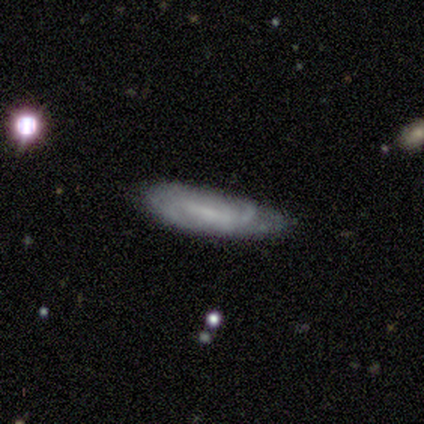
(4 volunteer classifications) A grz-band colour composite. It shows a featured or disk galaxy (75%) viewed edge-on (67%) with no central bulge (50%, tied with rounded). Merging: none (100%).